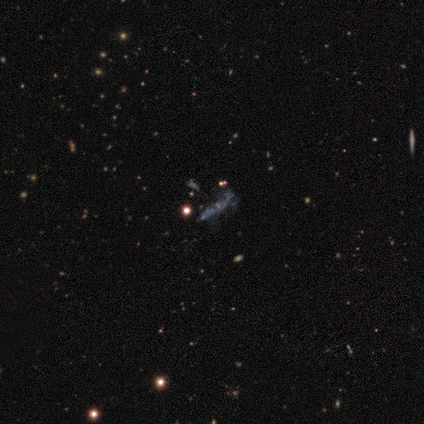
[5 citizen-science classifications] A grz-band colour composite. It shows a featured or disk galaxy (80%) with no bar (75%), medium (50%, tied with loose) spiral arms (50%, tied with no) and a small central bulge (50%, tied with none). Merging: none (25%, tied with minor disturbance, major disturbance and merger).